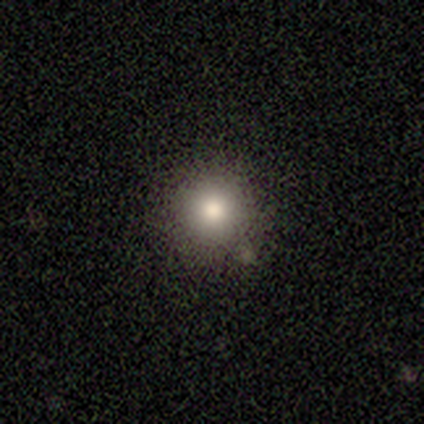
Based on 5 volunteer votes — Overall: smooth (80%). How rounded: round (100%). Merging: none (100%).